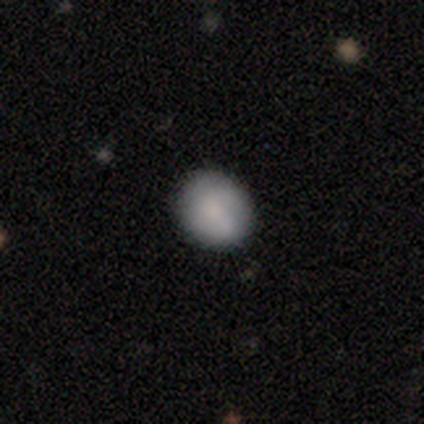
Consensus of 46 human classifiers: Smooth or featured?
  - smooth: 83% *
  - featured or disk: 13%
  - star or artifact: 4%
How rounded?
  - round: 66% *
  - in between: 34%
  - cigar-shaped: 0%
Merging?
  - none: 80% *
  - minor disturbance: 16%
  - major disturbance: 2%
  - merger: 2%